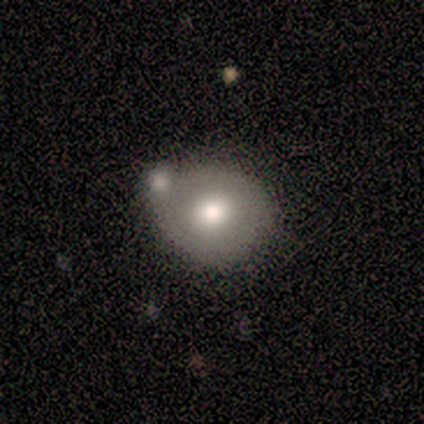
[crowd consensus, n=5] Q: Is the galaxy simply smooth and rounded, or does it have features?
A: smooth — 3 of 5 (60%).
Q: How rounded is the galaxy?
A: round — 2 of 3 (67%).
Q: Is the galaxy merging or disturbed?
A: merger — 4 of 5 (80%).